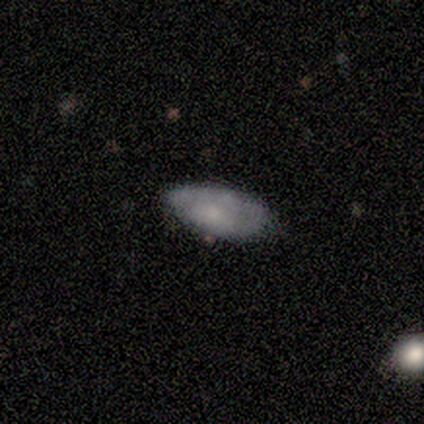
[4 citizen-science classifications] Smooth or featured: smooth — 75% (featured or disk — 25%)
How rounded: in between — 100%
Merging: none — 50% (tied with minor disturbance — 50%)